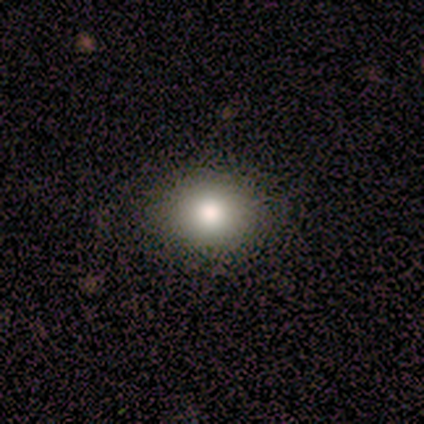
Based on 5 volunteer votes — This appears to be a smooth galaxy with no disk features (60%) that is in between round and cigar-shaped (67%). Merging: none (100%).